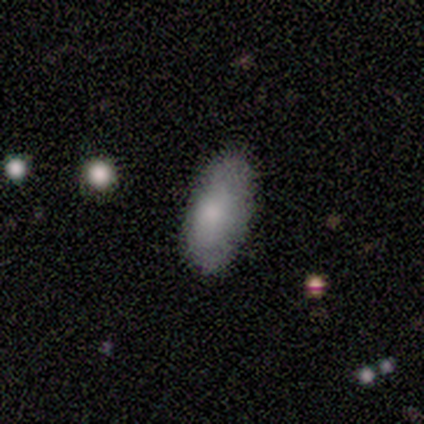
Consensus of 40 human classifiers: Smooth or featured? 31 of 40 (78%) said smooth. How rounded? 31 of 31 (100%) said in between. Merging? 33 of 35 (94%) said none.